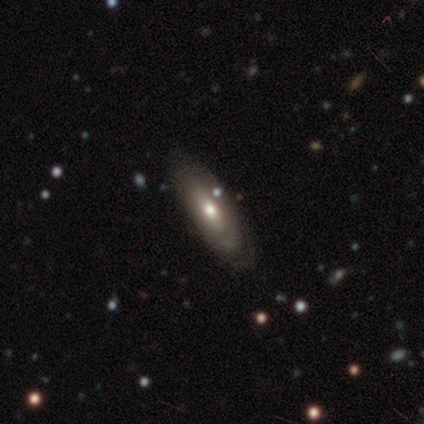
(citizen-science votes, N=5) Q: Smooth or featured?
A: featured or disk (60%); runner-up: smooth (40%)
Q: Edge-on disk?
A: yes (67%); runner-up: no (33%)
Q: Edge-on bulge?
A: rounded (100%)
Q: Merging?
A: none (60%); runner-up: major disturbance (40%)